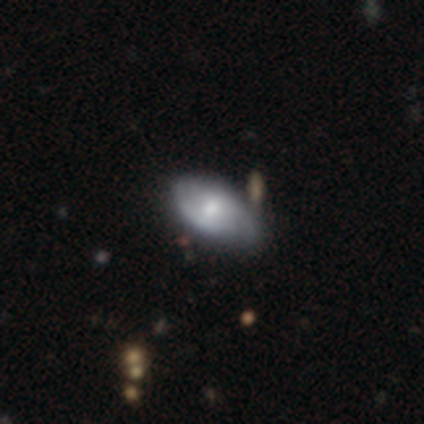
Smooth or featured?
  - smooth: 48% * (tied)
  - featured or disk: 48% * (tied)
  - star or artifact: 4%
How rounded?
  - in between: 95% *
  - cigar-shaped: 5%
  - round: 0%
Merging?
  - none: 26% *
  - minor disturbance: 18%
  - major disturbance: 7%
  - merger: 5%